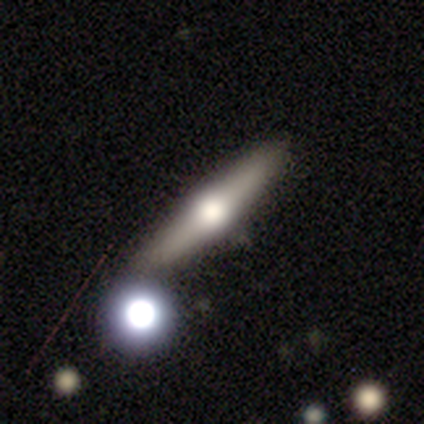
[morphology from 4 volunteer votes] featured or disk 100%, smooth 0%, star or artifact 0%. Down the decision tree: edge-on disk — yes (100%); edge-on bulge — rounded (100%); merging — none (75%).